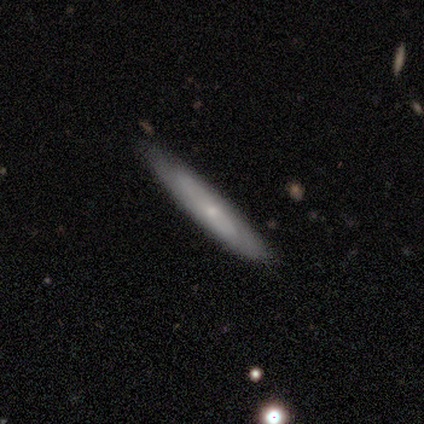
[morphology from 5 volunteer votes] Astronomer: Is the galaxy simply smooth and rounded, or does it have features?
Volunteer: featured or disk — 60% (runner-up: smooth, 40%).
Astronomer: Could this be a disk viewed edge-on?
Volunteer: yes — 67%.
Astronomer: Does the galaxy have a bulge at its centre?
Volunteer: none — 100%.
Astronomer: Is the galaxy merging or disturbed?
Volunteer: none — 80%.